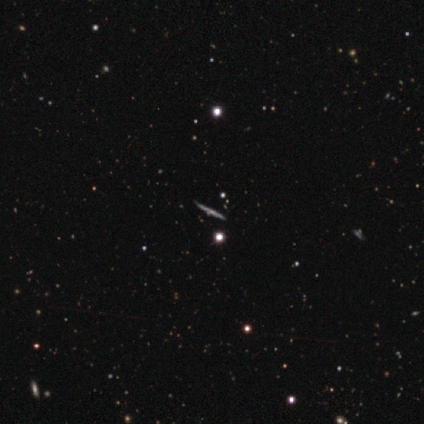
Smooth or featured? 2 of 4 (50%) said featured or disk. Edge-on disk? 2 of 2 (100%) said yes. Edge-on bulge? 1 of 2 (50%, tied with rounded) said none. Merging? 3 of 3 (100%) said none.